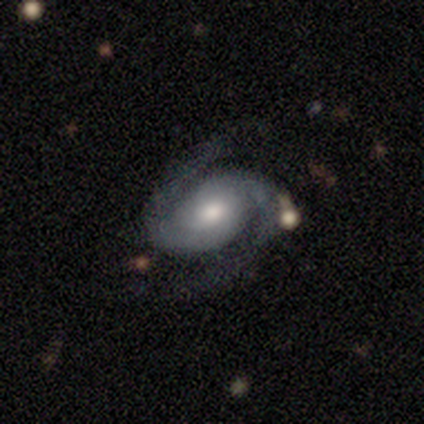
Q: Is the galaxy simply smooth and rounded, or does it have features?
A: featured or disk — 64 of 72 (89%).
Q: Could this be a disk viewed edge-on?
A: no — 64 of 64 (100%).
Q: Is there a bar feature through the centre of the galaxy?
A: no — 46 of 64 (72%).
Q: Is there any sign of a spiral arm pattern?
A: yes — 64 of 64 (100%).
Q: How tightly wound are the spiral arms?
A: medium — 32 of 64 (50%).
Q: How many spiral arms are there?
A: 2 — 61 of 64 (95%).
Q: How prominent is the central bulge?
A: moderate — 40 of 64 (62%).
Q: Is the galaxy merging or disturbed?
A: none — 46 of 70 (66%).